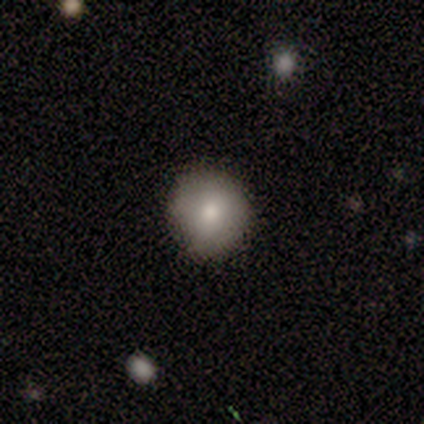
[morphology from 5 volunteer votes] This appears to be a smooth galaxy with no disk features (80%) that is round (100%). Merging: none (100%).